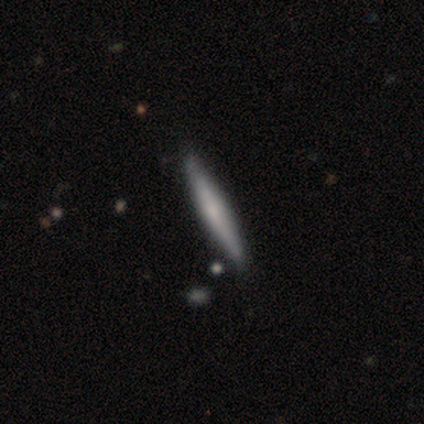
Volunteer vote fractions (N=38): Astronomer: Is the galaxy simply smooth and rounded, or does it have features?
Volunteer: featured or disk — 50% (runner-up: smooth, 45%).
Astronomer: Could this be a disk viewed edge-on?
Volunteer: yes — 95%.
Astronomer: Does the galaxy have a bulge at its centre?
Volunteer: rounded — 50% (runner-up: boxy, 28%).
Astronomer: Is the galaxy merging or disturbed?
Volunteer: none — 75%.